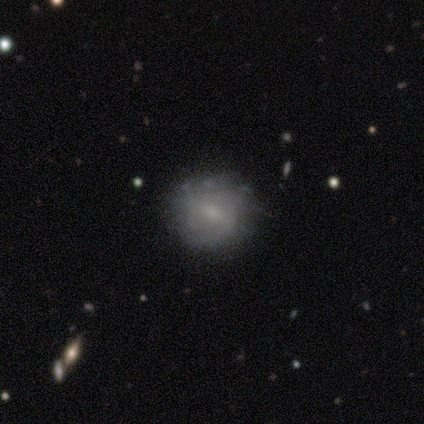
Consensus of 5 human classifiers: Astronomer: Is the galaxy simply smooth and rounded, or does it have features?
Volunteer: smooth — 40%, tied with featured or disk at 40%.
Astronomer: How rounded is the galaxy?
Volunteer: round — 100%.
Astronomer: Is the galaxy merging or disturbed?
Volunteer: none — 50%, tied with minor disturbance at 50%.